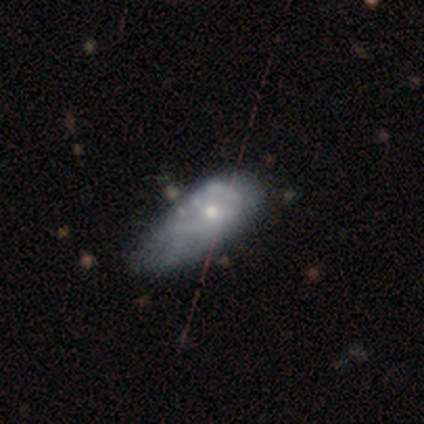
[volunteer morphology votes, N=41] This appears to be a featured or disk galaxy (63%) with no bar (88%), no spiral arms (68%) and a small central bulge (56%). Merging: minor disturbance (24%).